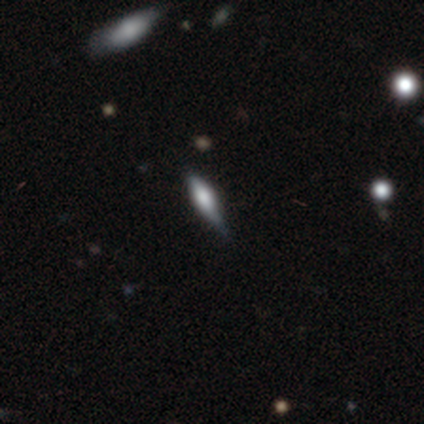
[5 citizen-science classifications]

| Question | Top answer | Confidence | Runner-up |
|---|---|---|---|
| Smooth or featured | smooth | 40% | tied: star or artifact (40%) |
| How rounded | in between | 100% | — |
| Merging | none | 100% | — |